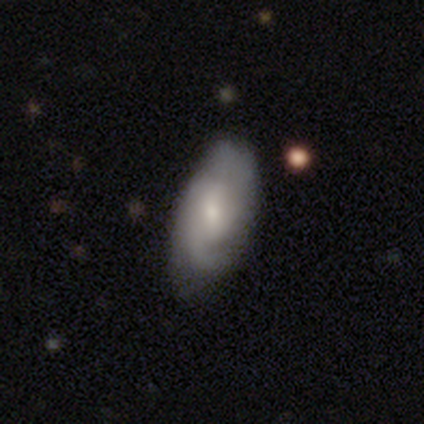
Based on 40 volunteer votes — smooth-or-featured: featured or disk: 70% | smooth: 30% | star or artifact: 0%
  disk-edge-on: no: 100% | yes: 0%
    bar: weak: 46% (tied) | no: 46% (tied) | strong: 7%
    has-spiral-arms: yes: 93% | no: 7%
      spiral-winding: medium: 62% | tight: 31% | loose: 8%
      spiral-arm-count: 2: 42% | can't tell: 31% | 1: 23% | 3: 4% | 4: 0% | more than 4: 0%
    bulge-size: moderate: 50% | small: 46% | none: 4% | dominant: 0% | large: 0%
  merging: none: 55% | minor disturbance: 32% | major disturbance: 0% | merger: 0%